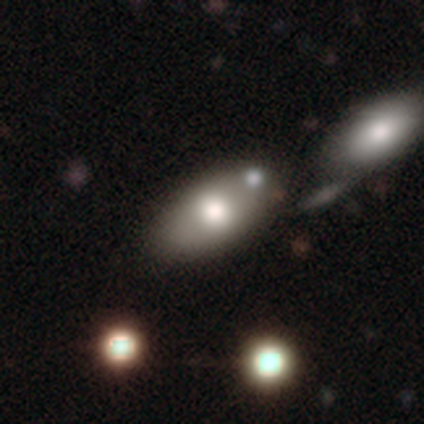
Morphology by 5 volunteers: Smooth or featured?
  - smooth: 40% * (tied)
  - featured or disk: 40% * (tied)
  - star or artifact: 20%
How rounded?
  - round: 50% * (tied)
  - in between: 50% * (tied)
  - cigar-shaped: 0%
Merging?
  - none: 50% *
  - major disturbance: 25%
  - merger: 25%
  - minor disturbance: 0%